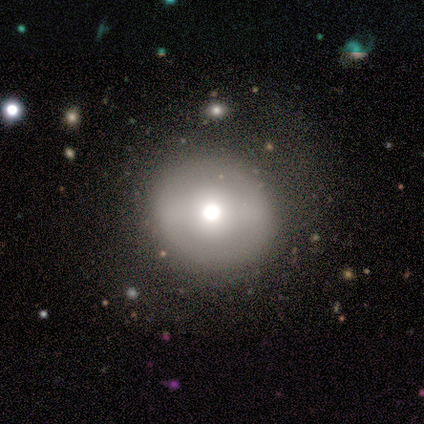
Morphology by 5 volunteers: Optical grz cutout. It shows a smooth galaxy with no disk features (80%) that is round (100%). Merging: none (100%).